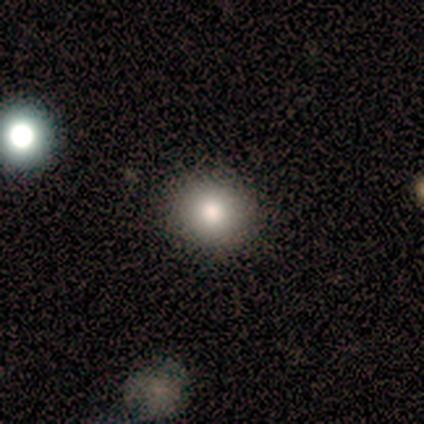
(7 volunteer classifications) This is likely a smooth galaxy (71%). How rounded: clearly round (100%). Merging: clearly none (86%).